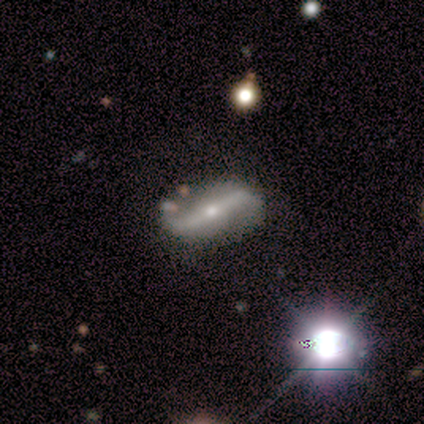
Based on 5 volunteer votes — smooth-or-featured: featured or disk: 80% | star or artifact: 20% | smooth: 0%
  disk-edge-on: no: 100% | yes: 0%
    bar: strong: 100% | weak: 0% | no: 0%
    has-spiral-arms: yes: 50% (tied) | no: 50% (tied)
      spiral-winding: loose: 100% | tight: 0% | medium: 0%
      spiral-arm-count: 2: 100% | 1: 0% | 3: 0% | 4: 0% | more than 4: 0% | can't tell: 0%
    bulge-size: moderate: 50% (tied) | small: 50% (tied) | dominant: 0% | large: 0% | none: 0%
  merging: none: 100% | minor disturbance: 0% | major disturbance: 0% | merger: 0%